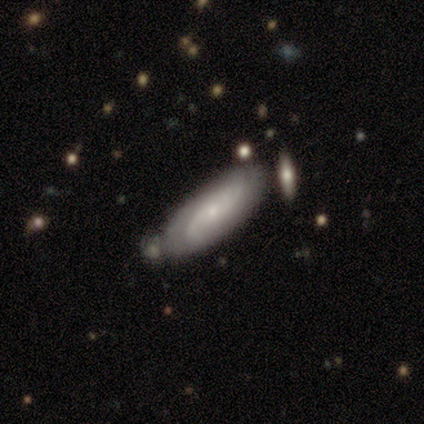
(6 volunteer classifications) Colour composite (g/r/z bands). It shows a featured or disk galaxy (50%) with a weak bar (67%), tight (33%, tied with medium and loose) spiral arms (100%) and a small central bulge (100%). Merging: none (60%).